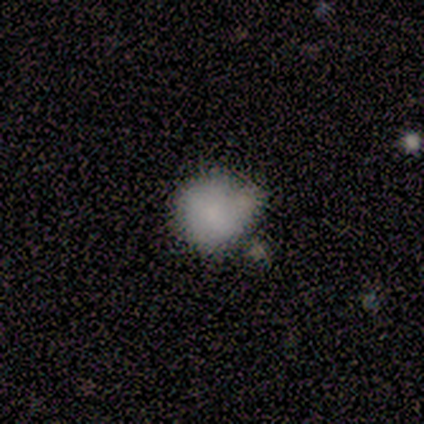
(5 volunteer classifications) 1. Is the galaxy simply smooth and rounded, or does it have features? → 80% smooth, 20% star or artifact, 0% featured or disk.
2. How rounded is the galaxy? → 100% round, 0% in between, 0% cigar-shaped.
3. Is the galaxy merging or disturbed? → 50% none (tied), 50% minor disturbance (tied), 0% major disturbance, 0% merger.